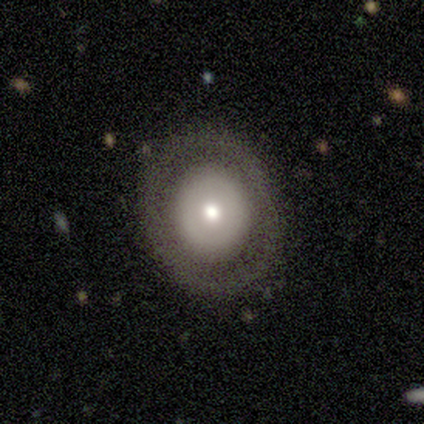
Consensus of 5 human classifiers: A featured or disk galaxy (60%) viewed edge-on (67%) with a boxy central bulge (50%, tied with rounded). Merging: none (100%).